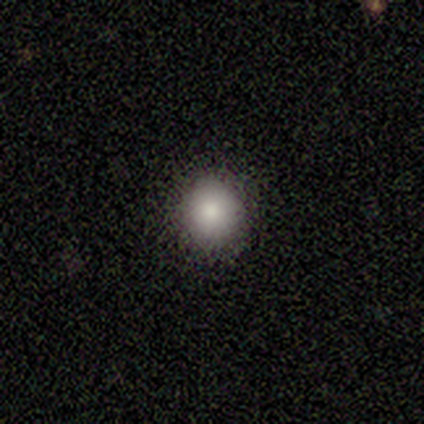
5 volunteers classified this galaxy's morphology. Overall: smooth (60%; featured or disk 40%). How rounded: round (100%). Merging: none (100%).